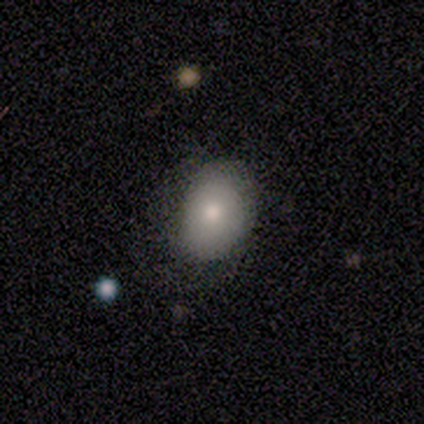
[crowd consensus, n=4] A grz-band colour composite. It shows a smooth galaxy with no disk features (100%) that is round (50%, tied with in between). Merging: none (50%, tied with minor disturbance).